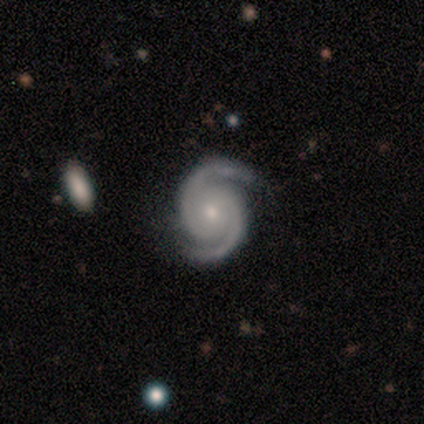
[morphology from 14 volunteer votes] This appears to be a featured or disk galaxy (100%) with no bar (79%), 2 (100%) tight (64%) spiral arms (100%) and a small central bulge (64%). Merging: none (86%).